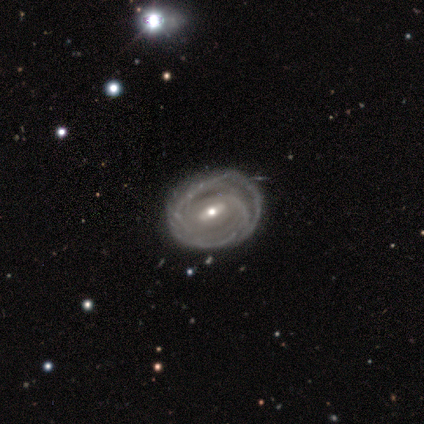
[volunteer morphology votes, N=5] Smooth or featured? 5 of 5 (100%) said featured or disk. Edge-on disk? 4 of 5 (80%) said no. Bar? 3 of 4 (75%) said strong. Spiral arms? 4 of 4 (100%) said yes. Spiral winding? 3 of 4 (75%) said tight. Spiral arm count? 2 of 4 (50%) said can't tell. Bulge size? 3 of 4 (75%) said moderate. Merging? 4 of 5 (80%) said none.